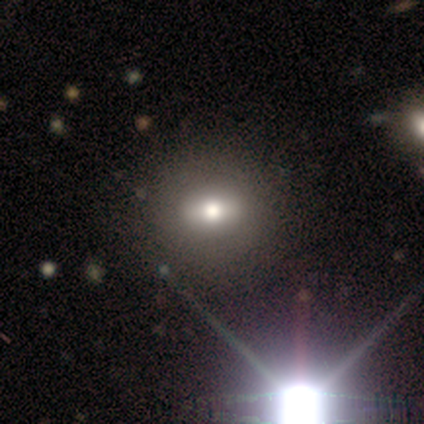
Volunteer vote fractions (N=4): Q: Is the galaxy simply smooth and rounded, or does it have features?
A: featured or disk — 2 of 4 (50%, tied with star or artifact).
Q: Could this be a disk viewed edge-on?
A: no — 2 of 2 (100%).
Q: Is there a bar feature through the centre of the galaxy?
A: strong — 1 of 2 (50%, tied with no).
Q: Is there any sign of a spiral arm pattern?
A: no — 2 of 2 (100%).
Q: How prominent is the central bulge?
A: moderate — 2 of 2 (100%).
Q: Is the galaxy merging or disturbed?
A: none — 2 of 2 (100%).